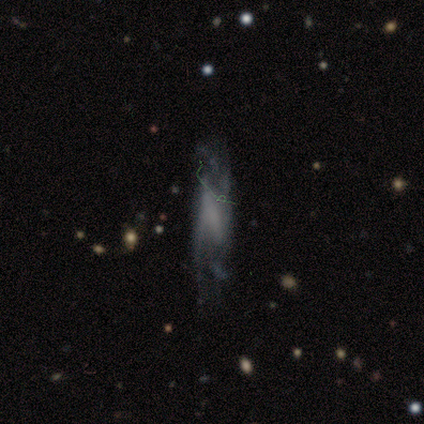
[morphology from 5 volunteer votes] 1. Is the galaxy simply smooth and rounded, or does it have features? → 40% featured or disk (tied), 40% star or artifact (tied), 20% smooth.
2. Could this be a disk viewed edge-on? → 100% no, 0% yes.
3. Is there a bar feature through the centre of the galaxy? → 100% no, 0% strong, 0% weak.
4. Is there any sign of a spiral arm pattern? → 100% no, 0% yes.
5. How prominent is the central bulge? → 100% none, 0% dominant, 0% large, 0% moderate, 0% small.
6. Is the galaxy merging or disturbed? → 33% none (tied), 33% minor disturbance (tied), 33% major disturbance (tied), 0% merger.